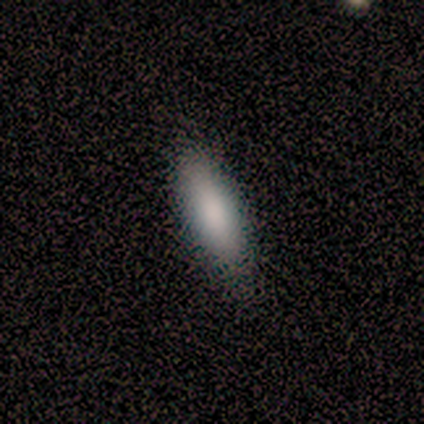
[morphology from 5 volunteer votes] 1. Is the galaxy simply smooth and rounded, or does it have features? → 100% smooth, 0% featured or disk, 0% star or artifact.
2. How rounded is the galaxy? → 60% in between, 40% cigar-shaped, 0% round.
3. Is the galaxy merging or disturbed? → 100% none, 0% minor disturbance, 0% major disturbance, 0% merger.